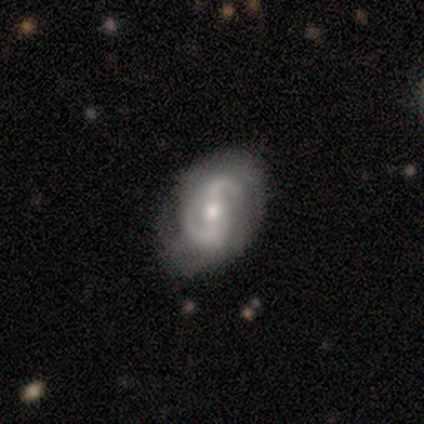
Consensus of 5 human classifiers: smooth-or-featured: featured or disk: 100% | smooth: 0% | star or artifact: 0%
  disk-edge-on: no: 100% | yes: 0%
    bar: strong: 40% (tied) | no: 40% (tied) | weak: 20%
    has-spiral-arms: yes: 100% | no: 0%
      spiral-winding: medium: 80% | loose: 20% | tight: 0%
      spiral-arm-count: 2: 100% | 1: 0% | 3: 0% | 4: 0% | more than 4: 0% | can't tell: 0%
    bulge-size: moderate: 40% | large: 20% | small: 20% | none: 20% | dominant: 0%
  merging: none: 60% | minor disturbance: 20% | major disturbance: 20% | merger: 0%